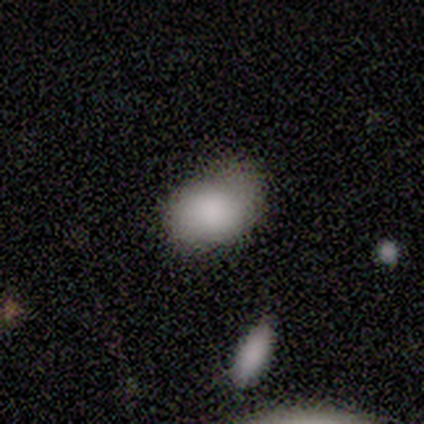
Q: Smooth or featured?
A: smooth (82%); runner-up: star or artifact (11%)
Q: How rounded?
A: in between (84%); runner-up: round (16%)
Q: Merging?
A: none (50%); runner-up: minor disturbance (32%)